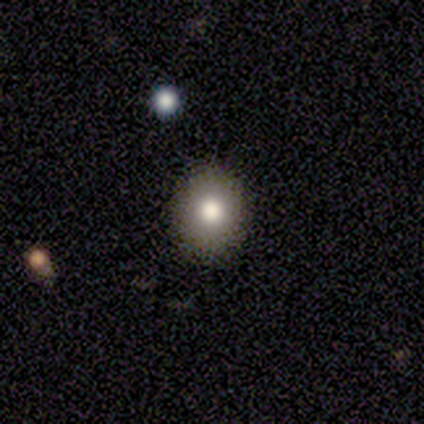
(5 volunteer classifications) Smooth or featured: smooth — 60% (featured or disk — 40%)
How rounded: round — 67% (in between — 33%)
Merging: none — 80% (minor disturbance — 20%)